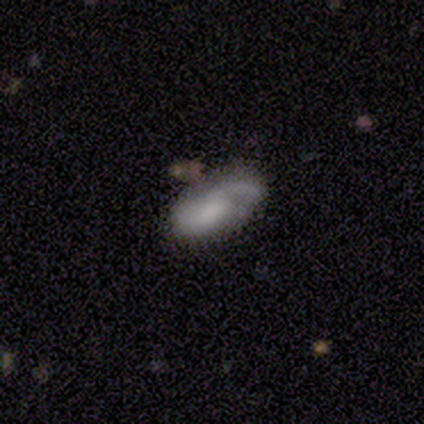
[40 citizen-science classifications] Smooth or featured? featured or disk (55%)
Edge-on disk? no (95%)
Bar? no (71%)
Spiral arms? yes (90%)
Spiral winding? loose (42%)
Spiral arm count? 1 (47%)
Bulge size? none (71%)
Merging? none (58%)